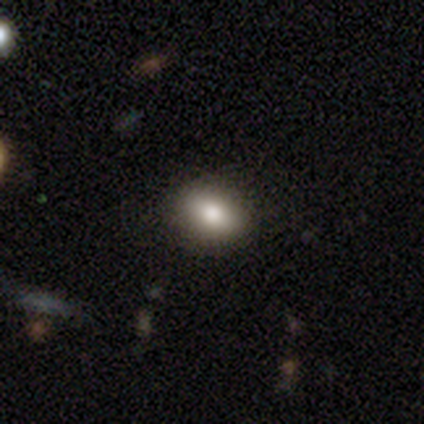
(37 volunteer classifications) smooth 81%, star or artifact 14%, featured or disk 5%. Down the decision tree: how rounded — in between (60%); merging — none (91%).